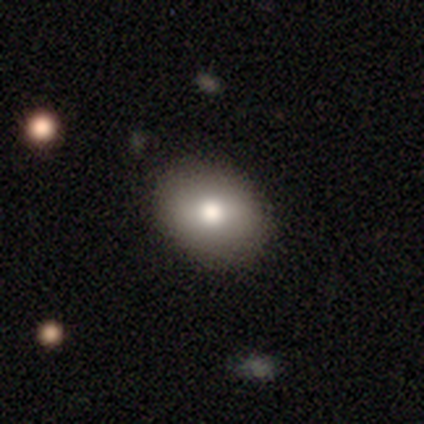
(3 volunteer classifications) Smooth or featured? 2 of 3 (67%) said featured or disk. Edge-on disk? 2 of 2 (100%) said no. Bar? 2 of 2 (100%) said no. Spiral arms? 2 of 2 (100%) said no. Bulge size? 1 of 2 (50%, tied with moderate) said large. Merging? 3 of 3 (100%) said none.